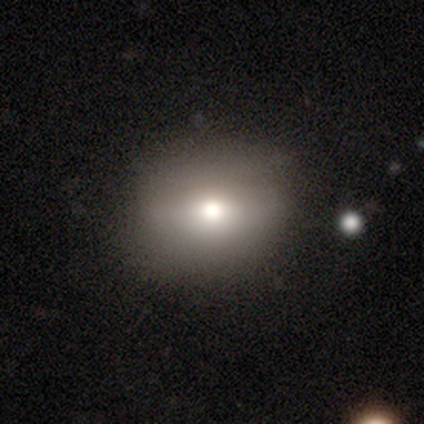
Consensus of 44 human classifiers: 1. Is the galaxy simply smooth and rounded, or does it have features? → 55% smooth, 25% featured or disk, 20% star or artifact.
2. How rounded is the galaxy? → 71% round, 29% in between, 0% cigar-shaped.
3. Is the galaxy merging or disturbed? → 80% none, 17% minor disturbance, 3% major disturbance, 0% merger.